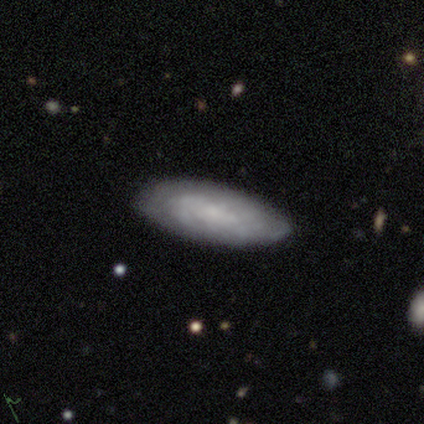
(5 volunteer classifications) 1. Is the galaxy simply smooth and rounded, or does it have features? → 60% featured or disk, 20% smooth, 20% star or artifact.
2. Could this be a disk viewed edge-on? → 67% no, 33% yes.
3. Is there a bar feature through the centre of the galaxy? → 50% strong (tied), 50% weak (tied), 0% no.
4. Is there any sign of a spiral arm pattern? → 50% yes (tied), 50% no (tied).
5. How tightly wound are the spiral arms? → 100% tight, 0% medium, 0% loose.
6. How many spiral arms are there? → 100% can't tell, 0% 1, 0% 2, 0% 3, 0% 4, 0% more than 4.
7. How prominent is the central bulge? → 50% small (tied), 50% none (tied), 0% dominant, 0% large, 0% moderate.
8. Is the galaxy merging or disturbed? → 75% none, 25% minor disturbance, 0% major disturbance, 0% merger.